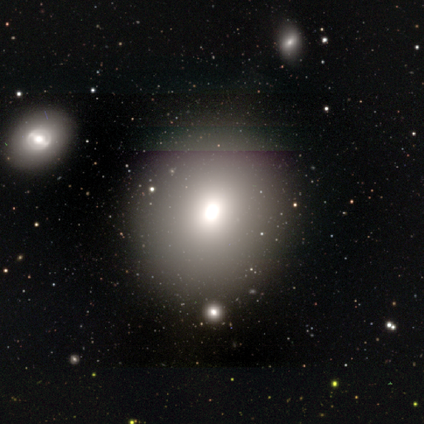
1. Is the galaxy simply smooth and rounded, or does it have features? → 50% smooth (tied), 50% featured or disk (tied), 0% star or artifact.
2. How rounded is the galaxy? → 80% round, 20% in between, 0% cigar-shaped.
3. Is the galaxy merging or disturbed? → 90% none, 10% minor disturbance, 0% major disturbance, 0% merger.